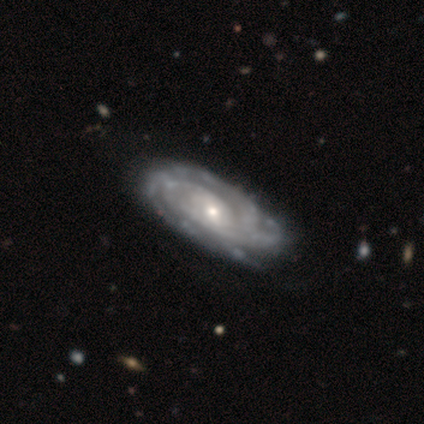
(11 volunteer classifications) This appears to be a featured or disk galaxy (100%) with no bar (50%), 3 (70%) tight (60%) spiral arms (100%) and a small central bulge (70%). Merging: none (82%).